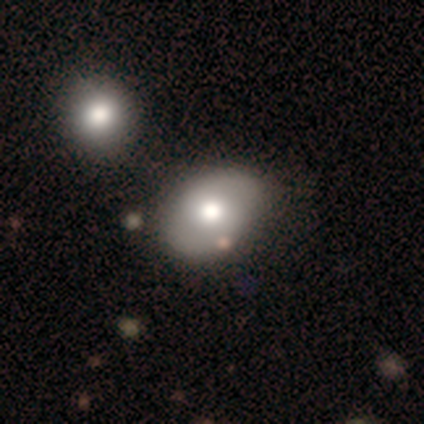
smooth 76%, featured or disk 17%, star or artifact 7%. Down the decision tree: how rounded — in between (68%); merging — none (55%).